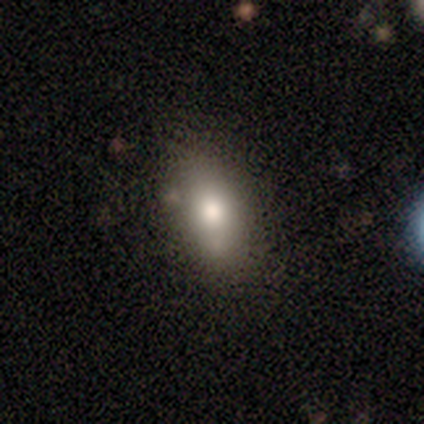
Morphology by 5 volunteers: Volunteers were most divided on "merging": none: 80%, minor disturbance: 20%, major disturbance: 0%, merger: 0%. More confident: smooth or featured — smooth (100%); how rounded — in between (100%).